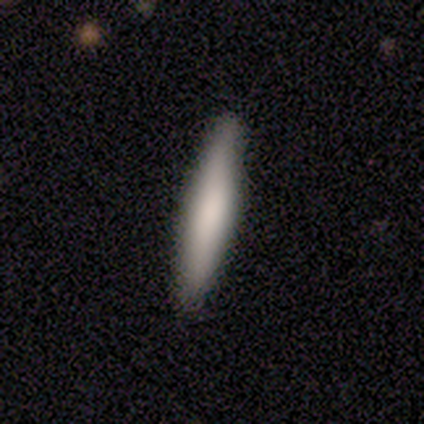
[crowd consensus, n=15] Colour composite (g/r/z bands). It shows a smooth galaxy with no disk features (80%) that is cigar-shaped (100%). Merging: none (93%).